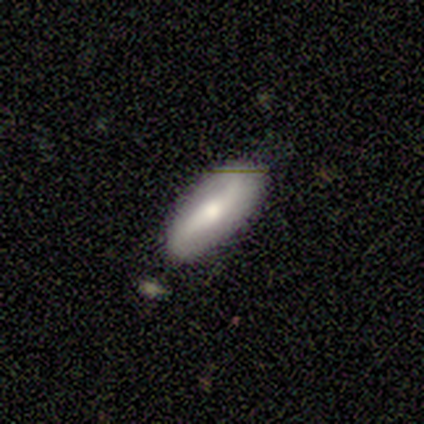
A smooth galaxy with no disk features (80%) that is in between round and cigar-shaped (100%).

Vote fractions:
- Smooth or featured? smooth: 80% / featured or disk: 20% / star or artifact: 0%
- How rounded? in between: 100% / round: 0% / cigar-shaped: 0%
- Merging? none: 60% / minor disturbance: 40% / major disturbance: 0% / merger: 0%